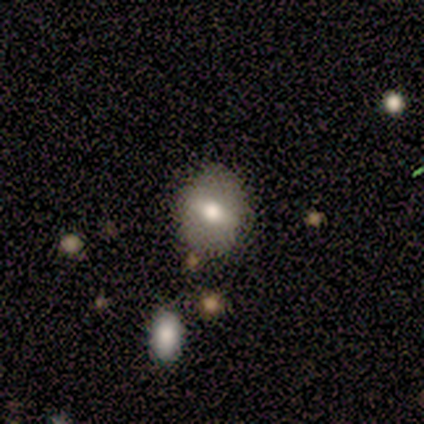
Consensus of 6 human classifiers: This is possibly a smooth galaxy (50%). How rounded: clearly round (100%). Merging: clearly none (100%).